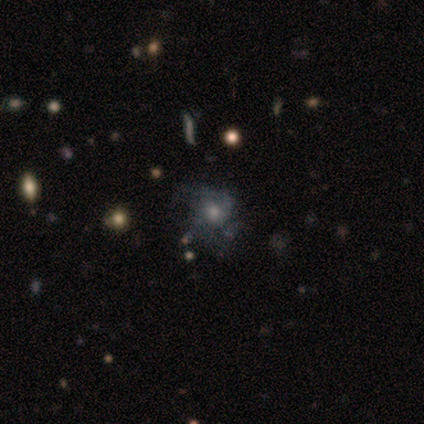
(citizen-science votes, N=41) featured or disk 54%, star or artifact 27%, smooth 20%. Down the decision tree: edge-on disk — no (100%); bar — no (95%); spiral arms — yes (73%); spiral arm count — 2 (44%); spiral winding — medium (62%); bulge size — moderate (45%); merging — none (60%).